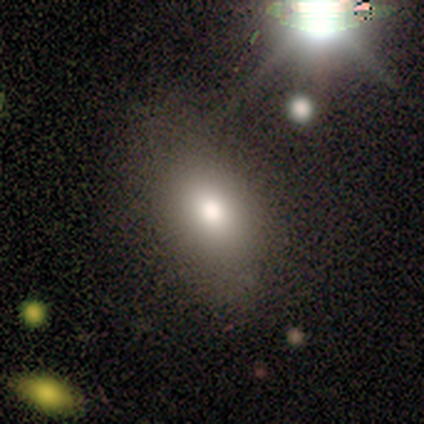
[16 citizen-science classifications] smooth 94%, featured or disk 6%, star or artifact 0%. Down the decision tree: how rounded — in between (87%); merging — none (69%).